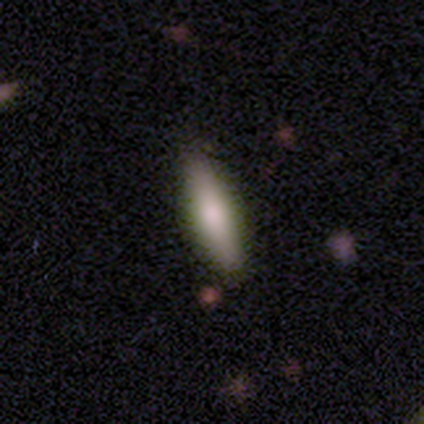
This appears to be a smooth galaxy with no disk features (61%) that is cigar-shaped (52%). Merging: none (83%).